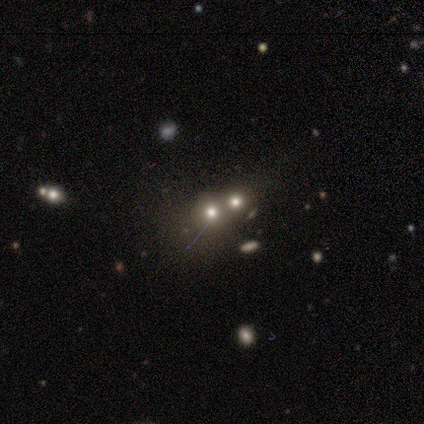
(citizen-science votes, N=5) Morphology: type=smooth (60%); roundness=round (67%); merging=merger (80%).